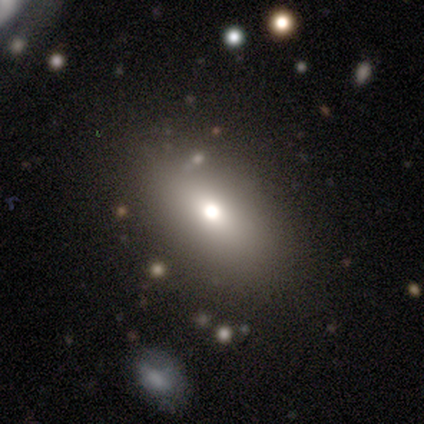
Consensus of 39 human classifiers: Smooth or featured: smooth — 90% (featured or disk — 8%)
How rounded: in between — 74% (cigar-shaped — 17%)
Merging: none — 87% (minor disturbance — 13%)